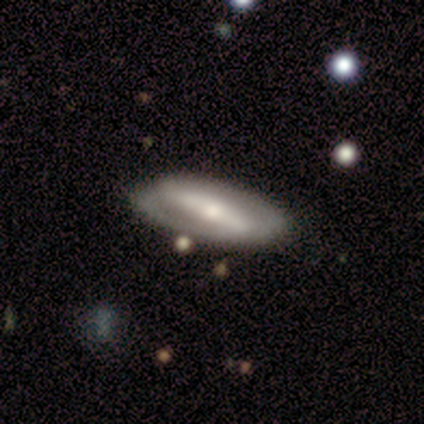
Smooth or featured?
  - featured or disk: 80% *
  - smooth: 20%
  - star or artifact: 0%
Edge-on disk?
  - no: 75% *
  - yes: 25%
Bar?
  - strong: 100% *
  - weak: 0%
  - no: 0%
Spiral arms?
  - yes: 100% *
  - no: 0%
Spiral winding?
  - medium: 67% *
  - tight: 33%
  - loose: 0%
Spiral arm count?
  - 2: 100% *
  - 1: 0%
  - 3: 0%
  - 4: 0%
  - more than 4: 0%
  - can't tell: 0%
Bulge size?
  - small: 67% *
  - moderate: 33%
  - dominant: 0%
  - large: 0%
  - none: 0%
Merging?
  - none: 80% *
  - minor disturbance: 20%
  - major disturbance: 0%
  - merger: 0%